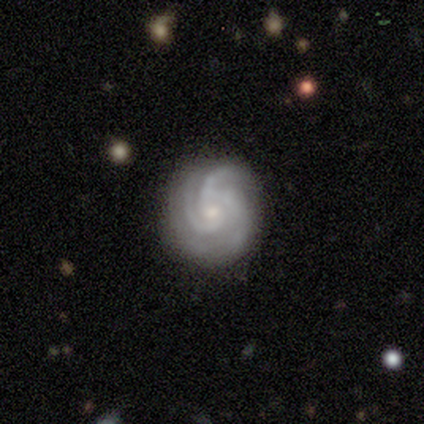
Smooth or featured?
  - featured or disk: 80% *
  - smooth: 20%
  - star or artifact: 0%
Edge-on disk?
  - no: 100% *
  - yes: 0%
Bar?
  - no: 75% *
  - weak: 25%
  - strong: 0%
Spiral arms?
  - yes: 100% *
  - no: 0%
Spiral winding?
  - tight: 75% *
  - medium: 25%
  - loose: 0%
Spiral arm count?
  - 3: 100% *
  - 1: 0%
  - 2: 0%
  - 4: 0%
  - more than 4: 0%
  - can't tell: 0%
Bulge size?
  - small: 50% *
  - moderate: 25%
  - none: 25%
  - dominant: 0%
  - large: 0%
Merging?
  - none: 100% *
  - minor disturbance: 0%
  - major disturbance: 0%
  - merger: 0%